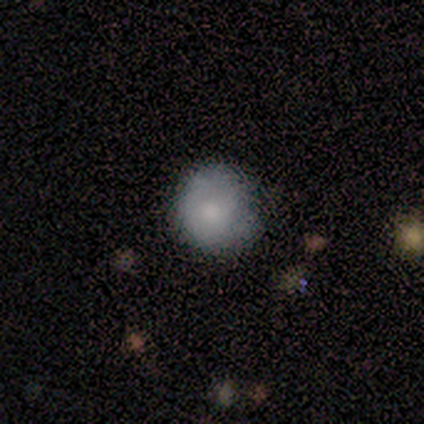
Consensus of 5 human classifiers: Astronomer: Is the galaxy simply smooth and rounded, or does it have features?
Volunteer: featured or disk — 60% (runner-up: smooth, 40%).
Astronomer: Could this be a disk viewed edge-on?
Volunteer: no — 100%.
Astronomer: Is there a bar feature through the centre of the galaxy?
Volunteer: no — 100%.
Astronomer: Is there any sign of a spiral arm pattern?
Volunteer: no — 100%.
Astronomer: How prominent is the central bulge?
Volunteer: moderate — 67%.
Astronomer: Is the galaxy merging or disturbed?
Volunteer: none — 60% (runner-up: major disturbance, 40%).